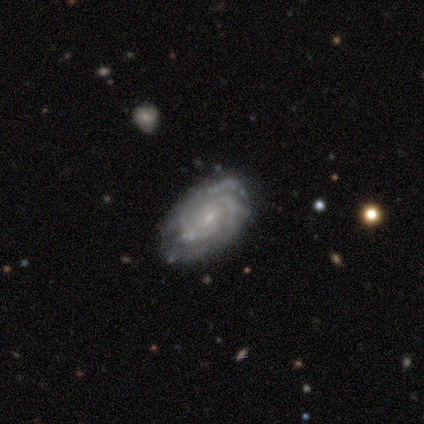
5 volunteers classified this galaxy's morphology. A featured or disk galaxy (100%) with no bar (80%), 3 (60%) tight (60%) spiral arms (100%) and a small central bulge (60%). Merging: none (80%).